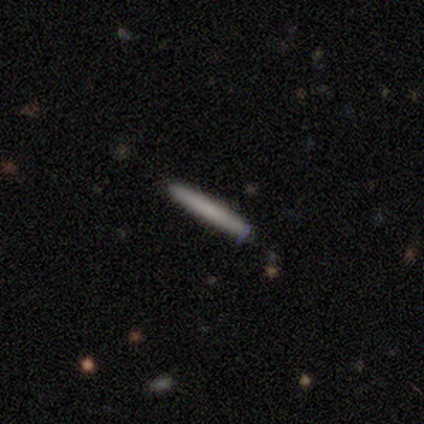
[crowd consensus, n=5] Smooth or featured? 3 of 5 (60%) said featured or disk. Edge-on disk? 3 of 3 (100%) said yes. Edge-on bulge? 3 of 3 (100%) said none. Merging? 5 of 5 (100%) said none.